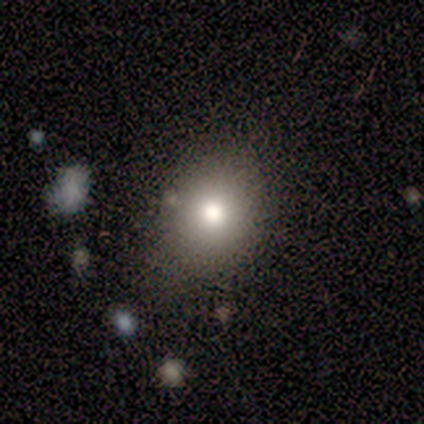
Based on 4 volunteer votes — Morphology: type=smooth (75%); roundness=round (67%); merging=none (75%).